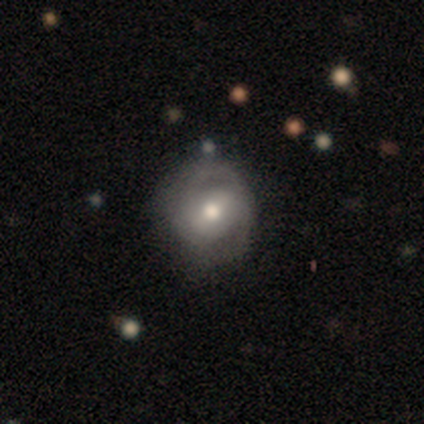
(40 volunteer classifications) Volunteers were most divided on "merging": none: 56%, minor disturbance: 31%, major disturbance: 13%, merger: 0%. More confident: edge-on disk — no (100%); spiral arms — yes (81%); bulge size — moderate (69%); smooth or featured — featured or disk (65%); bar — weak (58%); spiral arm count — 2 (57%); spiral winding — tight (57%).